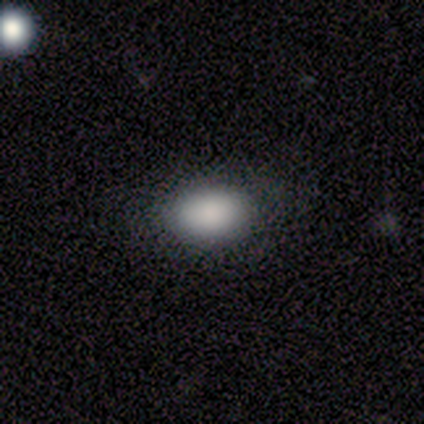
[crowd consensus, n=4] Morphology: type=smooth (100%); roundness=in between (75%); merging=none (100%).